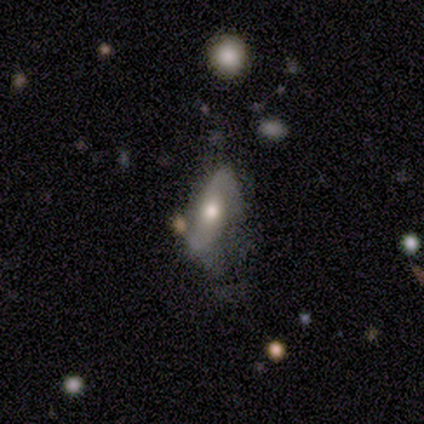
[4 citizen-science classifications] smooth-or-featured: featured or disk: 75% | star or artifact: 25% | smooth: 0%
  disk-edge-on: no: 100% | yes: 0%
    bar: no: 67% | weak: 33% | strong: 0%
    has-spiral-arms: yes: 67% | no: 33%
      spiral-winding: medium: 100% | tight: 0% | loose: 0%
      spiral-arm-count: 1: 50% (tied) | 2: 50% (tied) | 3: 0% | 4: 0% | more than 4: 0% | can't tell: 0%
    bulge-size: large: 33% (tied) | moderate: 33% (tied) | small: 33% (tied) | dominant: 0% | none: 0%
  merging: major disturbance: 67% | merger: 33% | none: 0% | minor disturbance: 0%